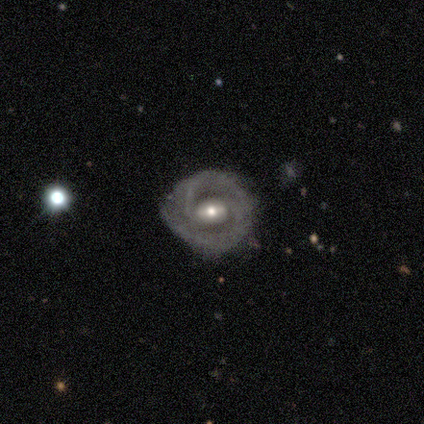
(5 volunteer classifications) Smooth or featured?
  - featured or disk: 100% *
  - smooth: 0%
  - star or artifact: 0%
Edge-on disk?
  - no: 100% *
  - yes: 0%
Bar?
  - weak: 60% *
  - strong: 40%
  - no: 0%
Spiral arms?
  - yes: 100% *
  - no: 0%
Spiral winding?
  - tight: 80% *
  - loose: 20%
  - medium: 0%
Spiral arm count?
  - 2: 80% *
  - can't tell: 20%
  - 1: 0%
  - 3: 0%
  - 4: 0%
  - more than 4: 0%
Bulge size?
  - moderate: 60% *
  - small: 40%
  - dominant: 0%
  - large: 0%
  - none: 0%
Merging?
  - none: 80% *
  - minor disturbance: 20%
  - major disturbance: 0%
  - merger: 0%